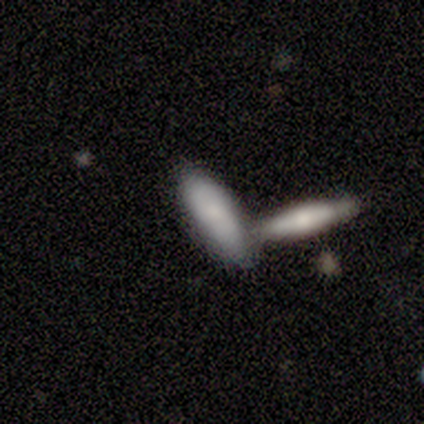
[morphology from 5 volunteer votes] Q: Smooth or featured?
A: featured or disk (60%); runner-up: smooth (40%)
Q: Edge-on disk?
A: no (67%); runner-up: yes (33%)
Q: Bar?
A: weak (50%); tied with: no (50%)
Q: Spiral arms?
A: no (100%)
Q: Bulge size?
A: moderate (50%); tied with: small (50%)
Q: Merging?
A: merger (80%); runner-up: none (20%)